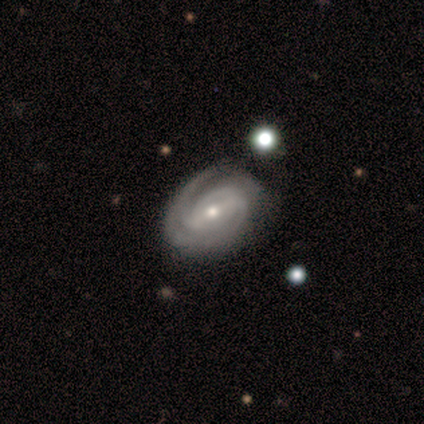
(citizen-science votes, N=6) smooth-or-featured: featured or disk: 83% | star or artifact: 17% | smooth: 0%
  disk-edge-on: no: 100% | yes: 0%
    bar: weak: 60% | strong: 20% | no: 20%
    has-spiral-arms: yes: 100% | no: 0%
      spiral-winding: tight: 80% | loose: 20% | medium: 0%
      spiral-arm-count: 2: 40% (tied) | can't tell: 40% (tied) | 3: 20% | 1: 0% | 4: 0% | more than 4: 0%
    bulge-size: small: 80% | moderate: 20% | dominant: 0% | large: 0% | none: 0%
  merging: none: 80% | minor disturbance: 20% | major disturbance: 0% | merger: 0%